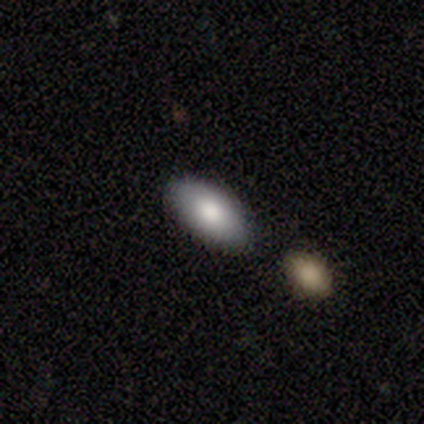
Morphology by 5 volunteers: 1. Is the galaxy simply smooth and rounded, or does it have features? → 80% smooth, 20% featured or disk, 0% star or artifact.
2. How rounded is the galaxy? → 100% in between, 0% round, 0% cigar-shaped.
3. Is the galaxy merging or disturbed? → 60% none, 20% minor disturbance, 20% merger, 0% major disturbance.